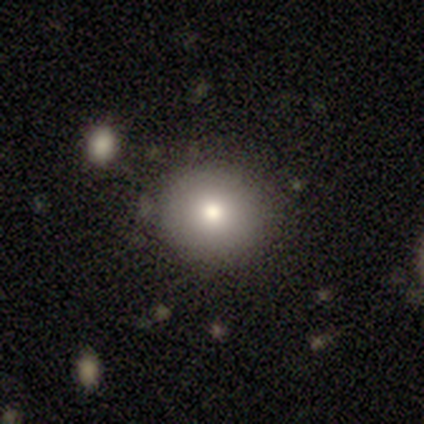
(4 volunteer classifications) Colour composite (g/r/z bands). It shows a smooth galaxy with no disk features (75%) that is round (67%). Merging: none (100%).